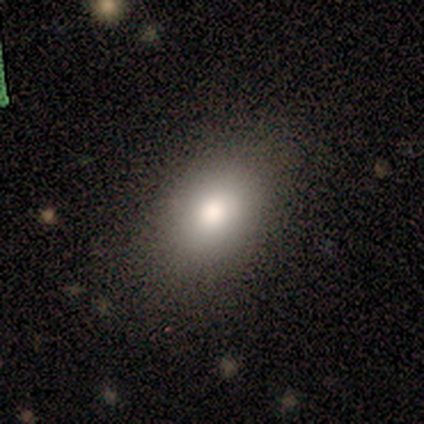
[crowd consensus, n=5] Smooth or featured? 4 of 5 (80%) said smooth. How rounded? 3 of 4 (75%) said in between. Merging? 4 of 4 (100%) said none.